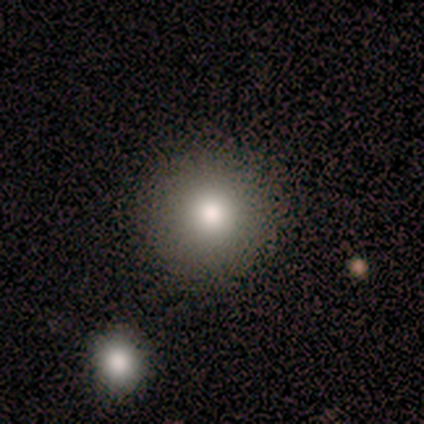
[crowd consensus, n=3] Q: Smooth or featured?
A: smooth (100%)
Q: How rounded?
A: round (100%)
Q: Merging?
A: none (33%); tied with: minor disturbance (33%); merger (33%)